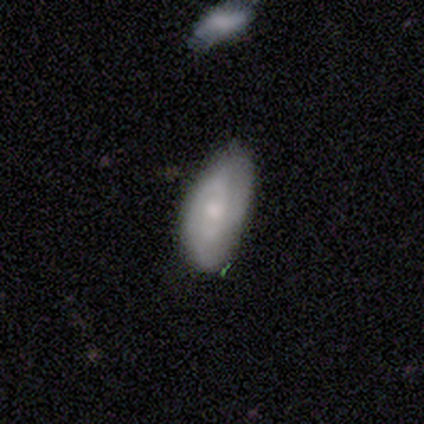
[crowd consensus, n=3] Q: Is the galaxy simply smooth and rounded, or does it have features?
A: smooth — 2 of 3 (67%).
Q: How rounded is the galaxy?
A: in between — 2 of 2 (100%).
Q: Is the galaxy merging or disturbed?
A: minor disturbance — 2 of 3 (67%).